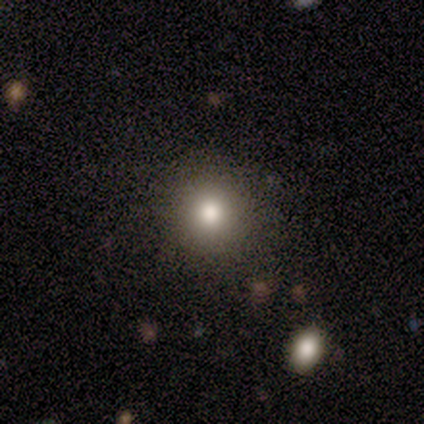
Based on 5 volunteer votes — This appears to be a smooth galaxy with no disk features (40%, tied with star or artifact) that is round (100%). Merging: none (100%).